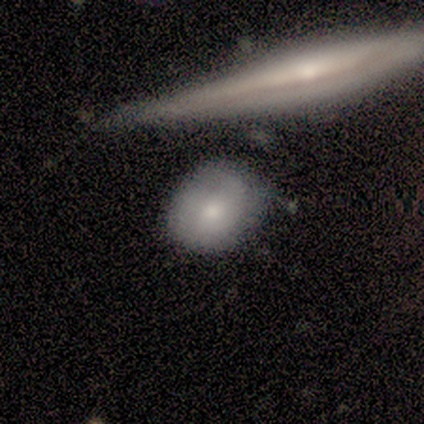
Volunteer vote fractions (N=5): Smooth or featured? 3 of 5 (60%) said featured or disk. Edge-on disk? 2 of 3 (67%) said no. Bar? 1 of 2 (50%, tied with no) said weak. Spiral arms? 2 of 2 (100%) said yes. Spiral winding? 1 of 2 (50%, tied with loose) said medium. Spiral arm count? 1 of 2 (50%, tied with can't tell) said 1. Bulge size? 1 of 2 (50%, tied with small) said moderate. Merging? 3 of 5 (60%) said none.